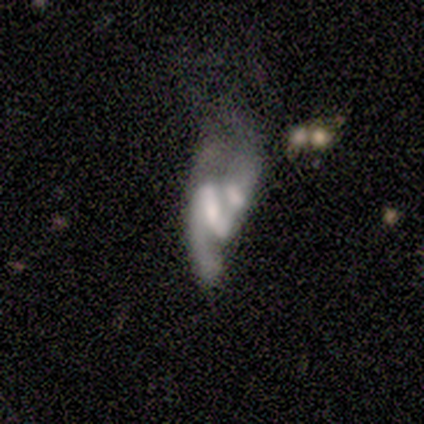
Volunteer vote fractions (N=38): featured or disk 79%, smooth 13%, star or artifact 8%. Down the decision tree: edge-on disk — no (100%); bar — strong (50%); spiral arms — yes (90%); spiral arm count — 2 (67%); spiral winding — loose (59%); bulge size — small (43%); merging — merger (60%).